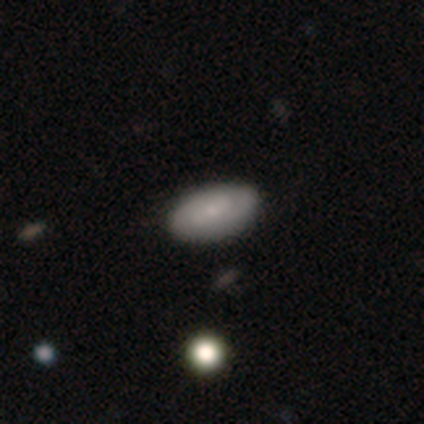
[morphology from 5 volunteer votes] featured or disk 80%, smooth 20%, star or artifact 0%. Down the decision tree: edge-on disk — no (75%); bar — weak (67%); spiral arms — yes (67%); spiral arm count — 1 (50%, tied with 2); spiral winding — tight (50%, tied with medium); bulge size — small (67%); merging — none (60%).